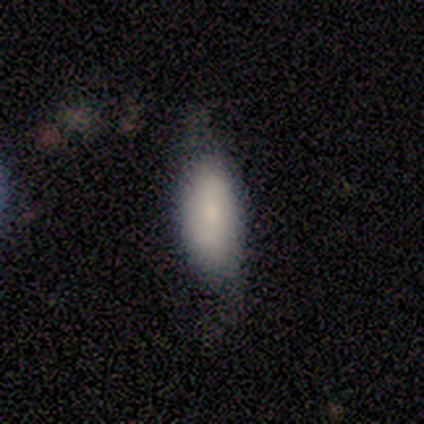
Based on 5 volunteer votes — Overall: smooth (80%). How rounded: in between (100%). Merging: none (40%, tied with major disturbance).